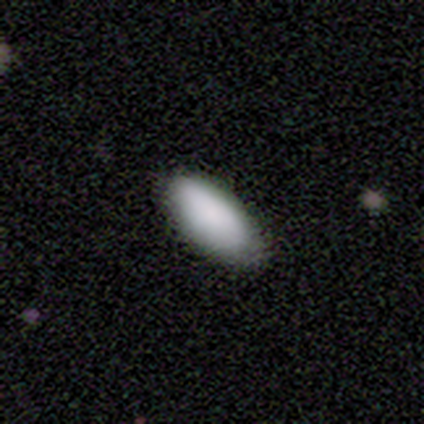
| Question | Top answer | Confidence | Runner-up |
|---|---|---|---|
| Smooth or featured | smooth | 100% | — |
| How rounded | in between | 100% | — |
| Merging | minor disturbance | 60% | none (40%) |